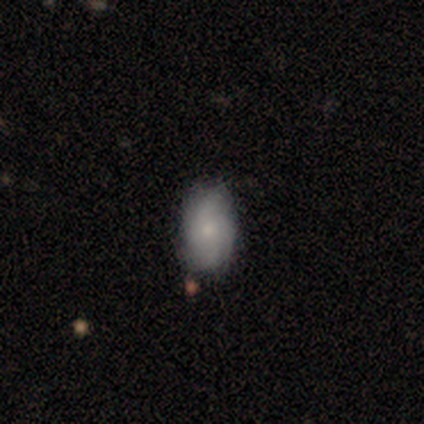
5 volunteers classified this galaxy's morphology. featured or disk 80%, smooth 20%, star or artifact 0%. Down the decision tree: edge-on disk — no (100%); bar — weak (75%); spiral arms — yes (75%); spiral arm count — 2 (33%, tied with 3 and 4); spiral winding — medium (67%); bulge size — moderate (75%); merging — none (80%).